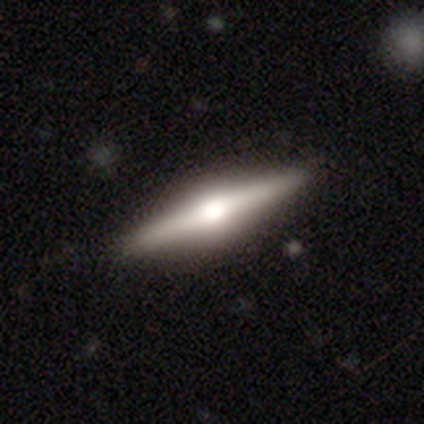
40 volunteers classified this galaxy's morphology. Volunteers were most divided on "merging": none: 64%, minor disturbance: 5%, major disturbance: 0%, merger: 0%. More confident: edge-on bulge — rounded (97%); edge-on disk — yes (94%); smooth or featured — featured or disk (80%).